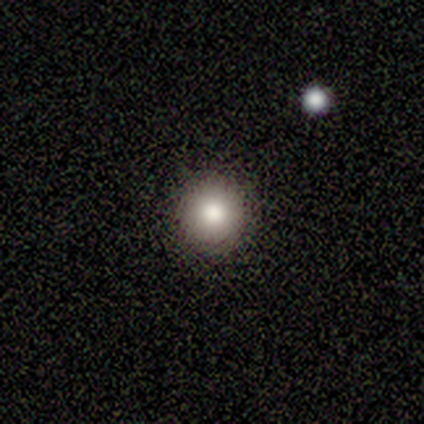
Smooth or featured?
  - smooth: 60% *
  - featured or disk: 20%
  - star or artifact: 20%
How rounded?
  - round: 100% *
  - in between: 0%
  - cigar-shaped: 0%
Merging?
  - none: 75% *
  - minor disturbance: 25%
  - major disturbance: 0%
  - merger: 0%